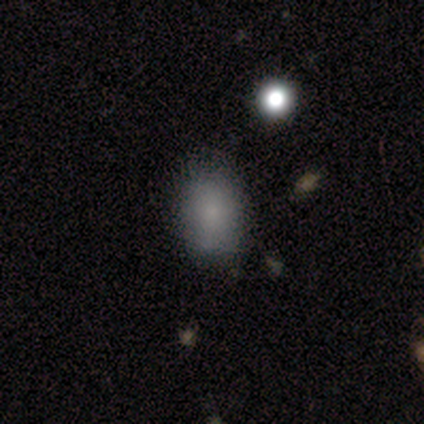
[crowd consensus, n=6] A smooth galaxy with no disk features (100%) that is round (50%, tied with in between). Merging: none (83%).